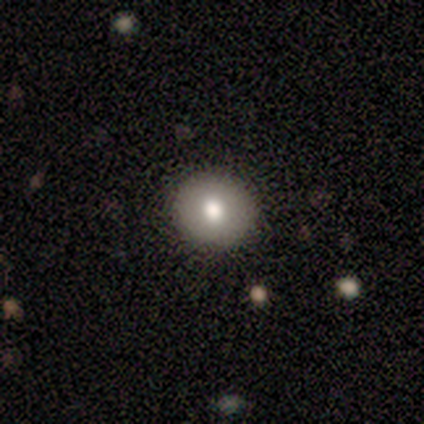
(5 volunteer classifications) A smooth galaxy with no disk features (100%) that is round (80%). Merging: none (80%).